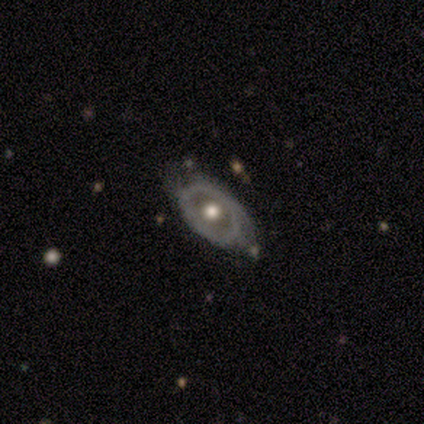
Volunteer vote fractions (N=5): Q: Smooth or featured?
A: featured or disk (80%); runner-up: smooth (20%)
Q: Edge-on disk?
A: no (100%)
Q: Bar?
A: no (75%); runner-up: weak (25%)
Q: Spiral arms?
A: no (100%)
Q: Bulge size?
A: moderate (100%)
Q: Merging?
A: none (40%); tied with: minor disturbance (40%)